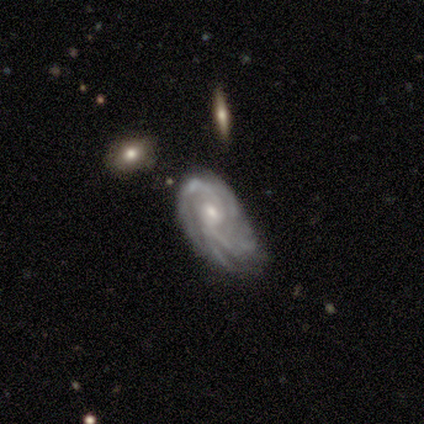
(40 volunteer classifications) Smooth or featured? featured or disk (90%)
Edge-on disk? no (94%)
Bar? no (53%)
Spiral arms? yes (91%)
Spiral winding? tight (45%)
Spiral arm count? can't tell (48%)
Bulge size? small (62%)
Merging? minor disturbance (39%, tied with major disturbance)